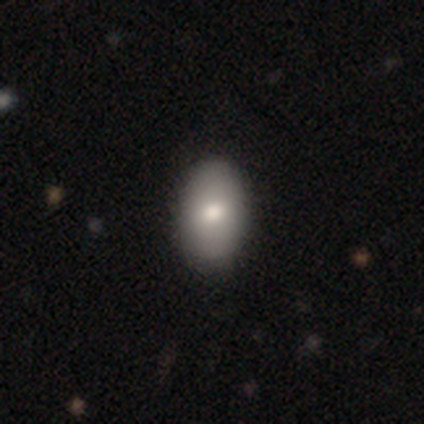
Smooth or featured? 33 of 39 (85%) said smooth. How rounded? 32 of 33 (97%) said in between. Merging? 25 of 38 (66%) said none.